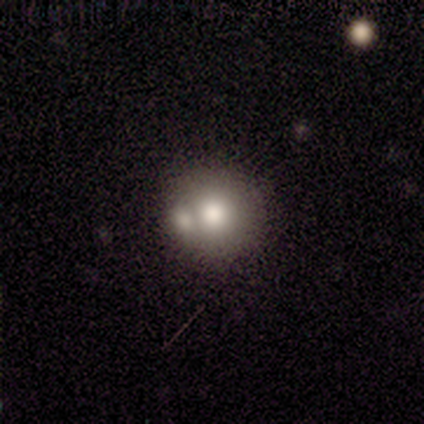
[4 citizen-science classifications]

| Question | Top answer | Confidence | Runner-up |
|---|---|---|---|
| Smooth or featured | smooth | 75% | featured or disk (25%) |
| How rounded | round | 100% | — |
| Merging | merger | 100% | — |